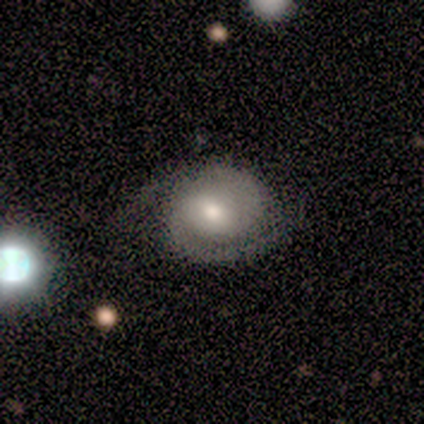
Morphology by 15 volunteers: smooth_or_featured: featured or disk (p=0.80) [alt: smooth p=0.13]
disk_edge_on: no (p=1.00)
bar: weak (p=0.42) [tied with: no p=0.42]
has_spiral_arms: yes (p=1.00)
spiral_winding: tight (p=0.67) [alt: medium p=0.17]
spiral_arm_count: 2 (p=0.92) [alt: 1 p=0.08]
bulge_size: moderate (p=0.67) [alt: small p=0.25]
merging: none (p=0.71) [alt: minor disturbance p=0.14]